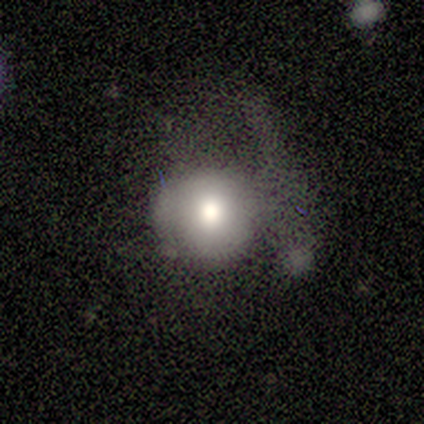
This appears to be a smooth galaxy with no disk features (67%) that is round (75%). Merging: none (50%).